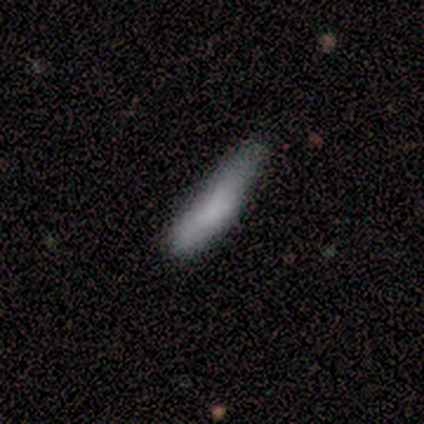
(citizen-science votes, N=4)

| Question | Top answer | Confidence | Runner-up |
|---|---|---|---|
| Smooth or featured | smooth | 75% | star or artifact (25%) |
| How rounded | cigar-shaped | 67% | in between (33%) |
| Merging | minor disturbance | 67% | none (33%) |